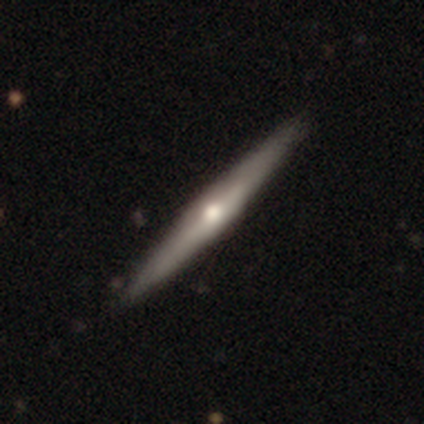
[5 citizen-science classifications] Smooth or featured?
  - featured or disk: 80% *
  - smooth: 20%
  - star or artifact: 0%
Edge-on disk?
  - yes: 100% *
  - no: 0%
Edge-on bulge?
  - rounded: 100% *
  - boxy: 0%
  - none: 0%
Merging?
  - none: 100% *
  - minor disturbance: 0%
  - major disturbance: 0%
  - merger: 0%